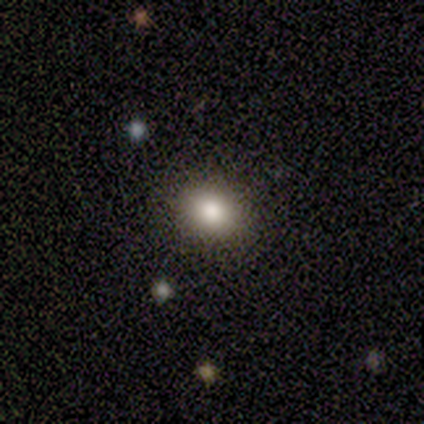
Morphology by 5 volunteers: smooth_or_featured: smooth (p=0.80) [alt: featured or disk p=0.20]
how_rounded: round (p=0.50) [tied with: in between p=0.50]
merging: none (p=1.00)